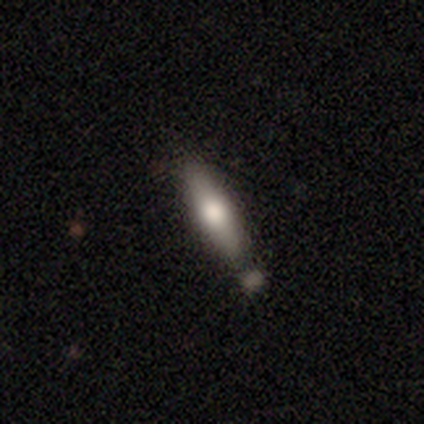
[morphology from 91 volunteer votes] Volunteers were most divided on "smooth or featured": smooth: 60%, featured or disk: 35%, star or artifact: 4%. More confident: how rounded — cigar-shaped (80%); merging — none (72%).